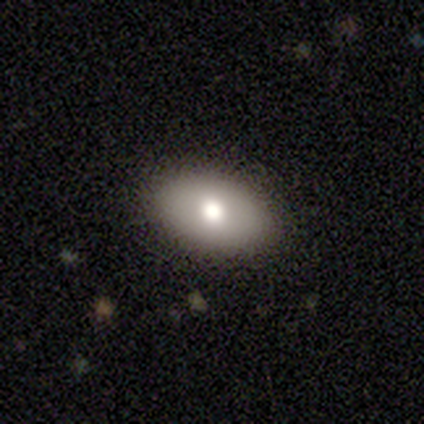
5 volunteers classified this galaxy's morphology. Volunteers were most divided on "smooth or featured": smooth: 60%, featured or disk: 20%, star or artifact: 20%. More confident: how rounded — in between (100%); merging — none (75%).